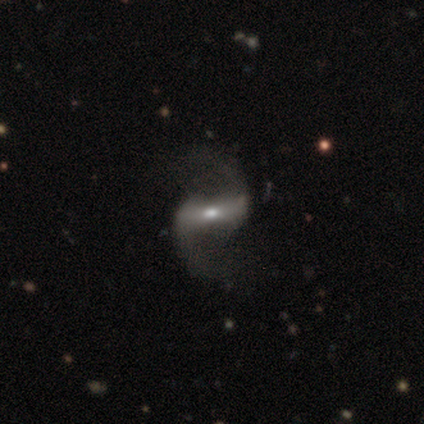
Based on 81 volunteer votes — Smooth or featured: featured or disk — 88% (smooth — 7%)
Edge-on disk: no — 90% (yes — 10%)
Bar: strong — 72% (weak — 20%)
Spiral arms: yes — 95% (no — 5%)
Spiral winding: loose — 85% (medium — 15%)
Spiral arm count: 2 — 98% (3 — 2%)
Bulge size: moderate — 59% (small — 34%)
Merging: none — 35% (major disturbance — 10%)